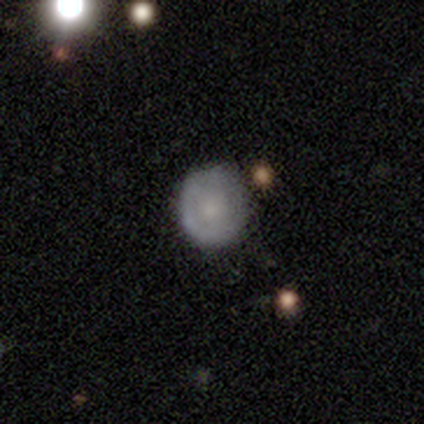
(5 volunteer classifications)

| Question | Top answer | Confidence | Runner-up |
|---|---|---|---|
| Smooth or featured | smooth | 80% | featured or disk (20%) |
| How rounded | round | 100% | — |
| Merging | none | 60% | minor disturbance (20%) |